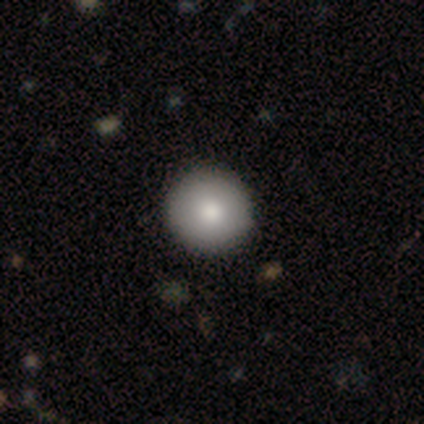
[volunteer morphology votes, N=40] Overall: smooth (90%). How rounded: round (100%). Merging: none (61%).